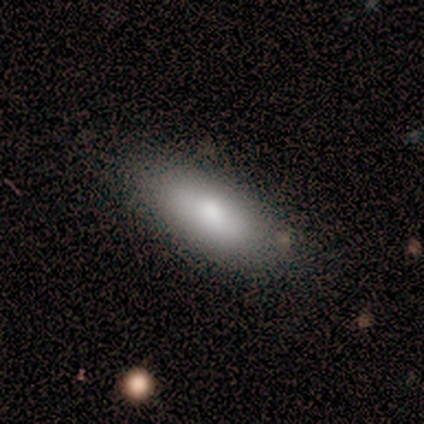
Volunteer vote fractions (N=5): Overall: smooth (40%, tied with featured or disk). How rounded: in between (100%). Merging: none (100%).